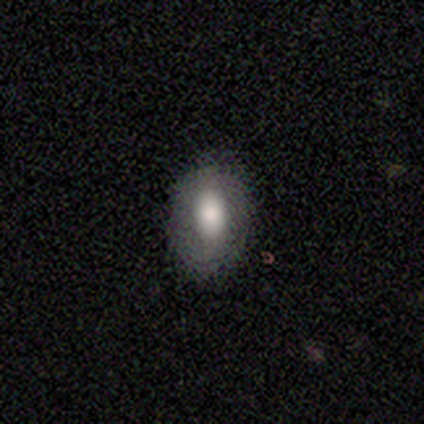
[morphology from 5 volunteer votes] smooth-or-featured: smooth: 40% (tied) | featured or disk: 40% (tied) | star or artifact: 20%
  how-rounded: round: 50% (tied) | in between: 50% (tied) | cigar-shaped: 0%
  merging: none: 100% | minor disturbance: 0% | major disturbance: 0% | merger: 0%